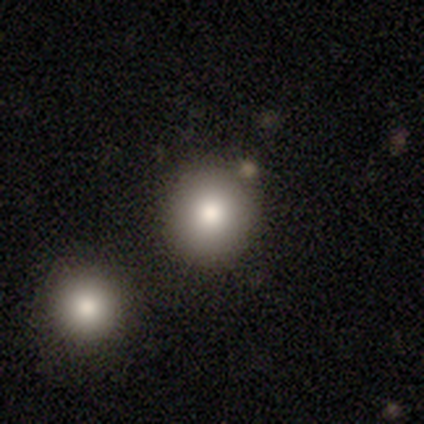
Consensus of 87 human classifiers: Q: Smooth or featured?
A: smooth (85%); runner-up: featured or disk (8%)
Q: How rounded?
A: round (96%); runner-up: in between (4%)
Q: Merging?
A: none (84%); runner-up: merger (10%)